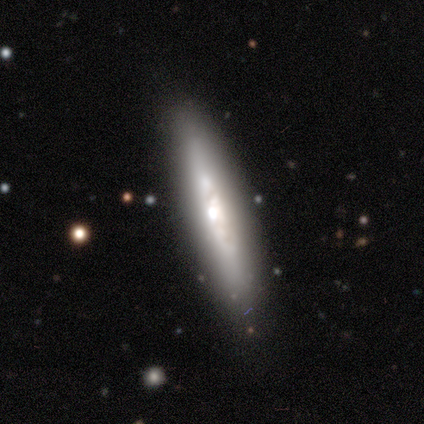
Smooth or featured: featured or disk — 80% (star or artifact — 20%)
Edge-on disk: yes — 75% (no — 25%)
Edge-on bulge: rounded — 67% (none — 33%)
Merging: none — 100%